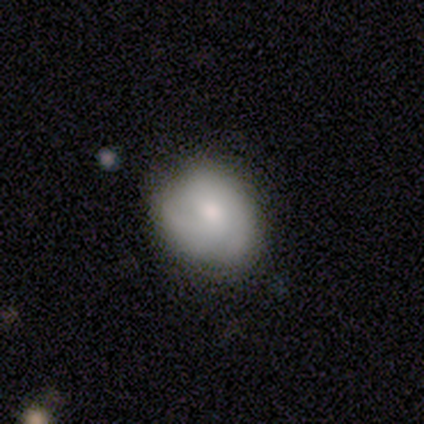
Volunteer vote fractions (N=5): smooth 60%, featured or disk 40%, star or artifact 0%. Down the decision tree: how rounded — round (67%); merging — none (80%).